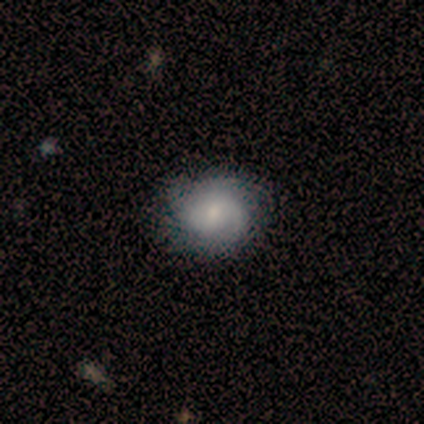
Smooth or featured? 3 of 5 (60%) said featured or disk. Edge-on disk? 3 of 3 (100%) said no. Bar? 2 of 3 (67%) said no. Spiral arms? 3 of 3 (100%) said yes. Spiral winding? 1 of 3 (33%, tied with medium and loose) said tight. Spiral arm count? 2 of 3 (67%) said can't tell. Bulge size? 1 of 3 (33%, tied with moderate and none) said large. Merging? 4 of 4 (100%) said none.